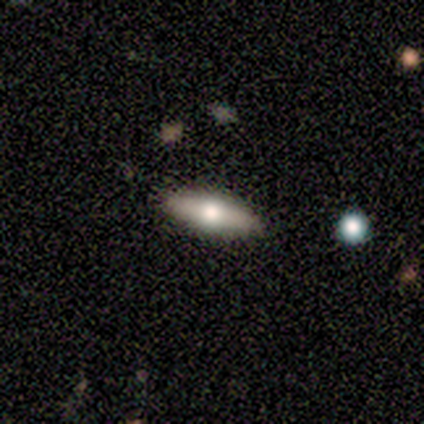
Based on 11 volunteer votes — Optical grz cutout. It shows a smooth galaxy with no disk features (55%) that is cigar-shaped (83%). Merging: none (100%).